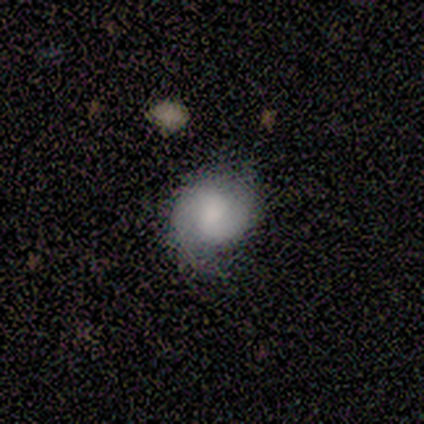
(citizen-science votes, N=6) Morphology: type=smooth (67%); roundness=round (100%); merging=none (67%).